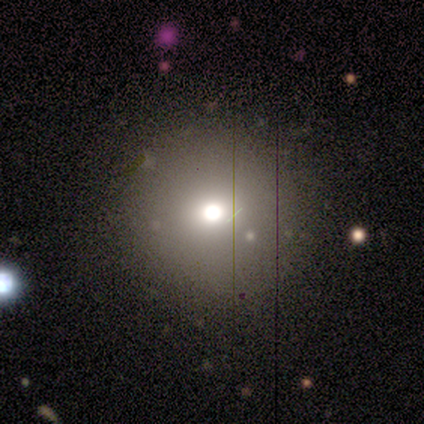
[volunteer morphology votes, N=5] Smooth or featured? 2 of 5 (40%, tied with featured or disk) said smooth. How rounded? 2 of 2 (100%) said round. Merging? 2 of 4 (50%) said none.